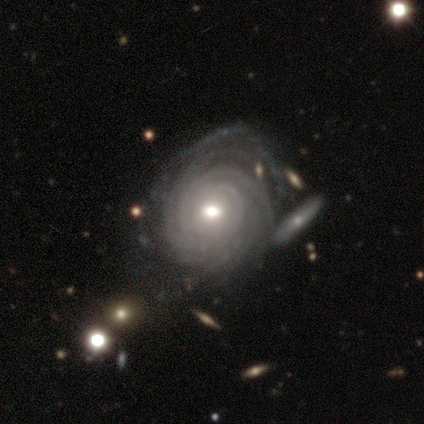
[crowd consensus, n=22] featured or disk 95%, smooth 5%, star or artifact 0%. Down the decision tree: edge-on disk — no (100%); bar — no (48%); spiral arms — yes (100%); spiral arm count — more than 4 (57%); spiral winding — tight (81%); bulge size — moderate (62%); merging — none (64%).